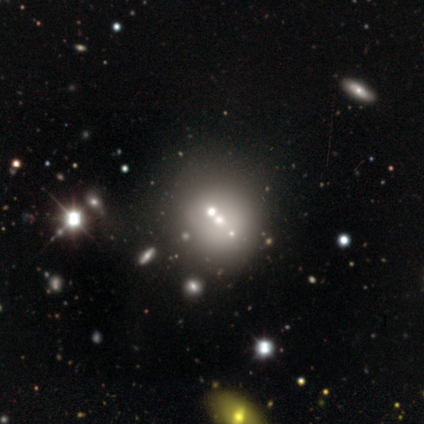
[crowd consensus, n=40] Smooth or featured: smooth — 35% (tied with featured or disk — 35%)
How rounded: round — 100%
Merging: none — 64% (merger — 21%)